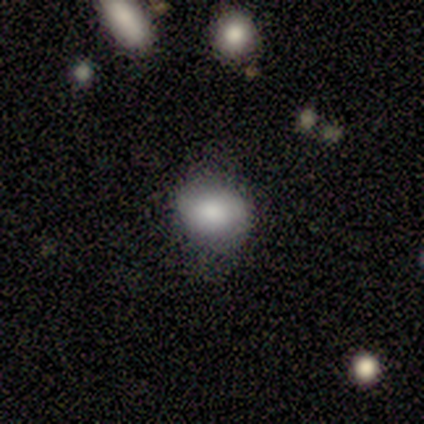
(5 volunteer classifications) smooth_or_featured: smooth (p=1.00)
how_rounded: round (p=0.80) [alt: in between p=0.20]
merging: minor disturbance (p=0.60) [alt: none p=0.40]